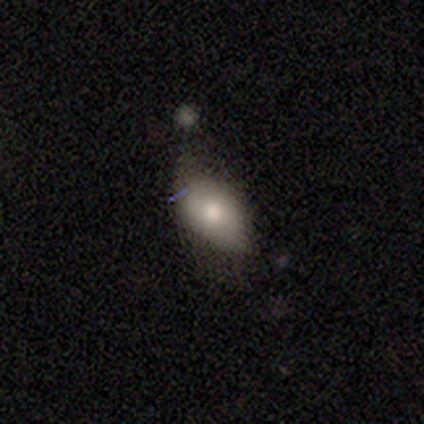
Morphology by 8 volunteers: type=smooth (88%); roundness=in between (100%); merging=minor disturbance (88%).